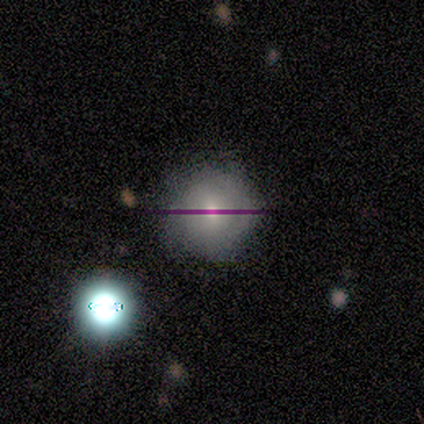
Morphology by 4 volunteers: smooth 75%, featured or disk 25%, star or artifact 0%. Down the decision tree: how rounded — round (100%); merging — none (75%).